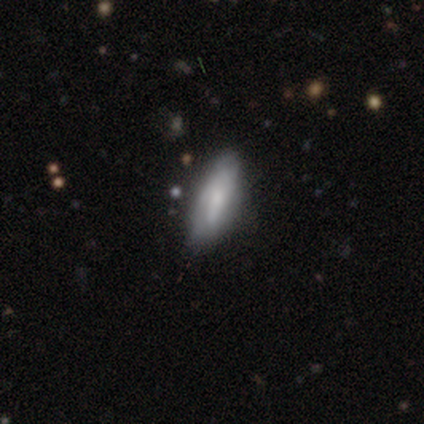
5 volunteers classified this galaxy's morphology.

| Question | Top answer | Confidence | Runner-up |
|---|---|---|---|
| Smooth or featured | smooth | 40% | tied: featured or disk (40%) |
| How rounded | in between | 50% | tied: cigar-shaped (50%) |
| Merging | none | 100% | — |